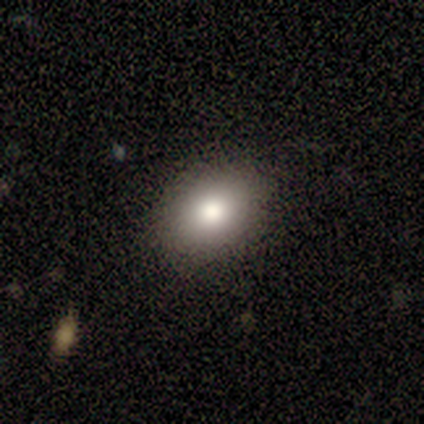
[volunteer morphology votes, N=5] A smooth galaxy with no disk features (100%) that is in between round and cigar-shaped (100%). Merging: none (100%).